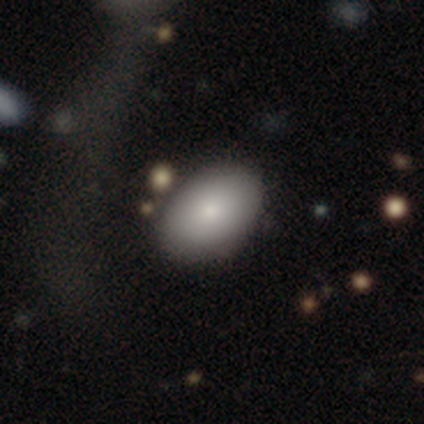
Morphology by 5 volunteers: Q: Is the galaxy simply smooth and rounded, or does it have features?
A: smooth — 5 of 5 (100%).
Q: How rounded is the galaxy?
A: in between — 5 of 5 (100%).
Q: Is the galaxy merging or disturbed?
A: none — 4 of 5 (80%).